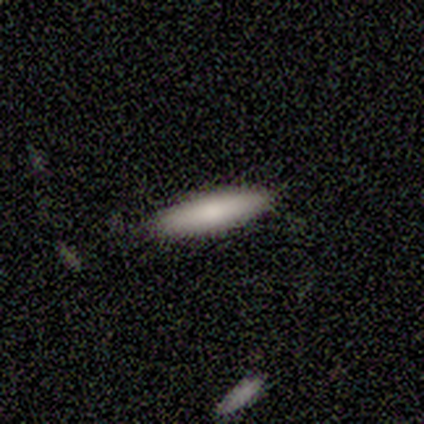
This appears to be a smooth galaxy with no disk features (50%, tied with featured or disk) that is cigar-shaped (100%). Merging: none (100%).